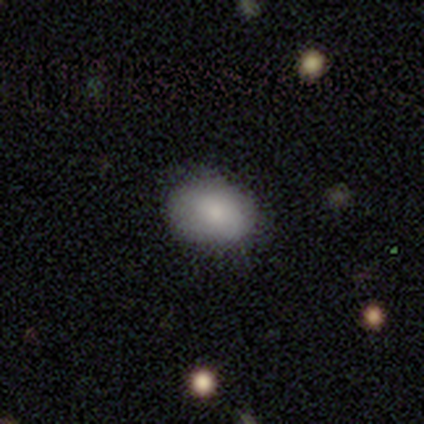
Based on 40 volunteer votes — smooth_or_featured: smooth (p=0.85) [alt: featured or disk p=0.12]
how_rounded: in between (p=0.79) [alt: round p=0.21]
merging: none (p=0.69) [alt: minor disturbance p=0.28]